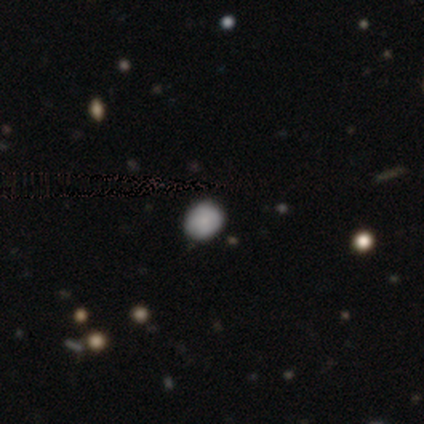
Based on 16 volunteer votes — smooth 94%, featured or disk 6%, star or artifact 0%. Down the decision tree: how rounded — round (87%); merging — none (88%).